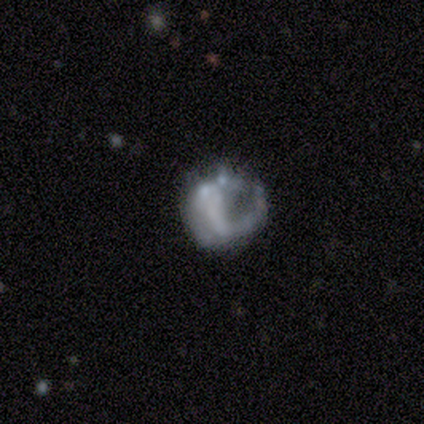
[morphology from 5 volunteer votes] smooth-or-featured: featured or disk: 80% | smooth: 20% | star or artifact: 0%
  disk-edge-on: no: 100% | yes: 0%
    bar: no: 100% | strong: 0% | weak: 0%
    has-spiral-arms: no: 100% | yes: 0%
    bulge-size: none: 100% | dominant: 0% | large: 0% | moderate: 0% | small: 0%
  merging: major disturbance: 60% | none: 40% | minor disturbance: 0% | merger: 0%